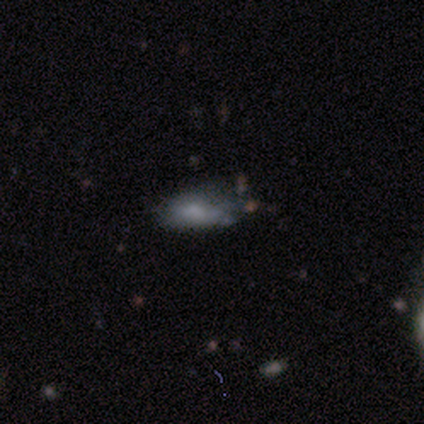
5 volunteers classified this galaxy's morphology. Smooth or featured? 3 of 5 (60%) said smooth. How rounded? 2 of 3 (67%) said in between. Merging? 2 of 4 (50%, tied with minor disturbance) said none.